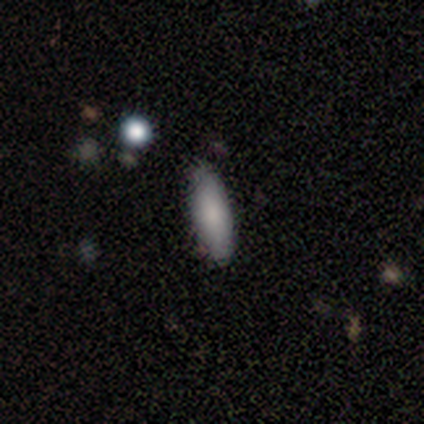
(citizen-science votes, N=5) This appears to be a smooth galaxy with no disk features (60%) that is in between round and cigar-shaped (67%). Merging: none (100%).